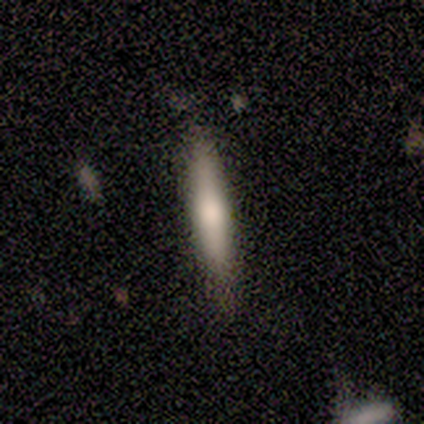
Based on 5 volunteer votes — This appears to be a smooth galaxy with no disk features (60%) that is cigar-shaped (100%). Merging: none (100%).